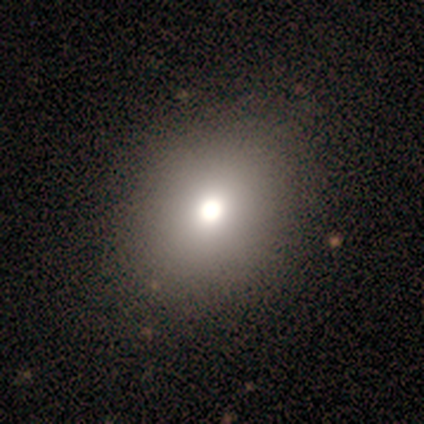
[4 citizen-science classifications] Morphology: type=featured or disk (75%); edge-on=no (100%); bar=no (100%); spiral arms=no (100%); bulge=large (67%); merging=none (33%, tied with minor disturbance and merger).